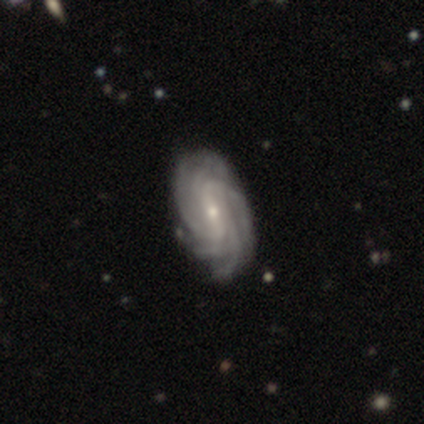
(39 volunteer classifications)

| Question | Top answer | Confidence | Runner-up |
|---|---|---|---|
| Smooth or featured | featured or disk | 95% | star or artifact (5%) |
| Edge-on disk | no | 97% | yes (3%) |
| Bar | weak | 56% | strong (22%) |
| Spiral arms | yes | 100% | — |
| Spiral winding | tight | 72% | medium (25%) |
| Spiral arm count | more than 4 | 47% | 4 (25%) |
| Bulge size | small | 64% | moderate (33%) |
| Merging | none | 86% | minor disturbance (14%) |